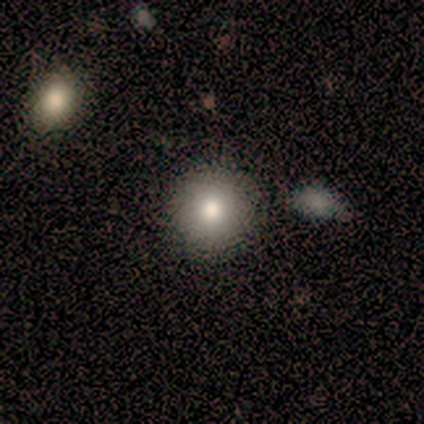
Morphology: type=smooth (100%); roundness=round (100%); merging=none (100%).